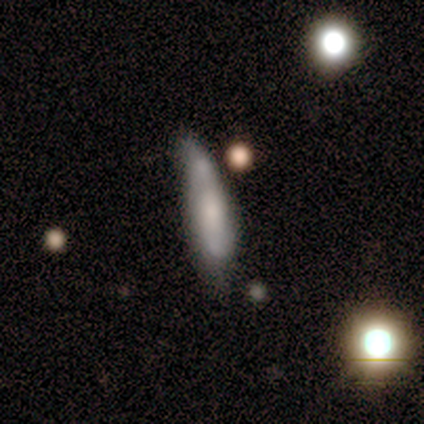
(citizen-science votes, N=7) Smooth or featured: smooth — 57% (featured or disk — 43%)
How rounded: cigar-shaped — 75% (in between — 25%)
Merging: minor disturbance — 57% (merger — 29%)